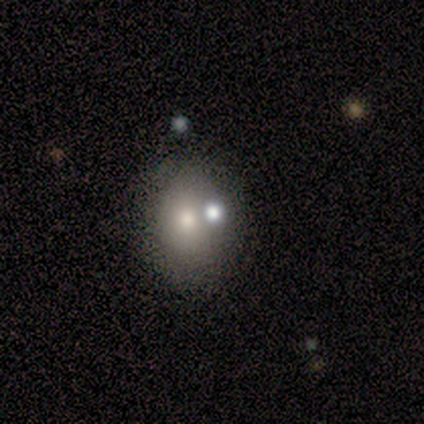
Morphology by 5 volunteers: This is clearly a smooth galaxy (80%). How rounded: clearly in between (100%). Merging: possibly none (50%).